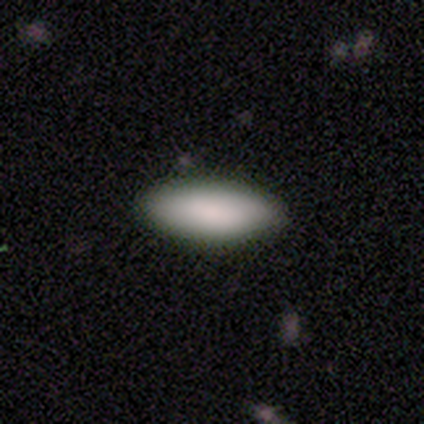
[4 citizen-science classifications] Morphology: type=smooth (100%); roundness=in between (100%); merging=none (100%).